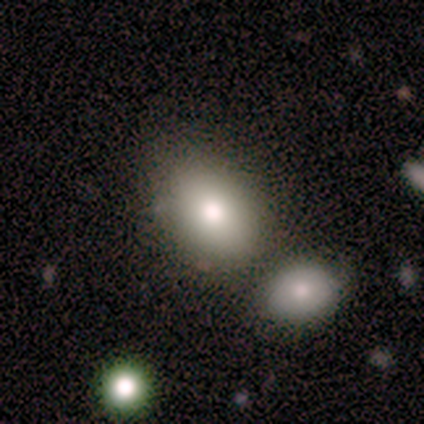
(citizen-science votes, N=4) Smooth or featured? 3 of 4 (75%) said smooth. How rounded? 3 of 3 (100%) said in between. Merging? 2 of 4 (50%) said none.